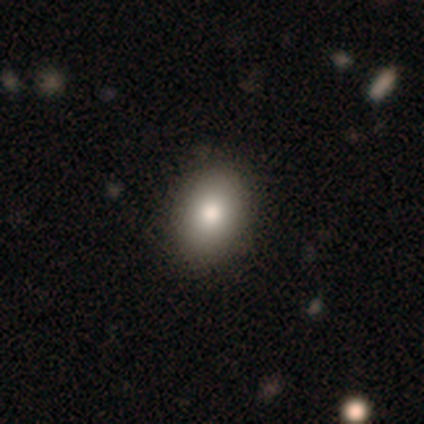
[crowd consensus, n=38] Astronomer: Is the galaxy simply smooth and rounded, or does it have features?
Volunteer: smooth — 87%.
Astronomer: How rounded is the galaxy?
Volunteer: in between — 85%.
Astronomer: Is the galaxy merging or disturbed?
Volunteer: none — 63%.